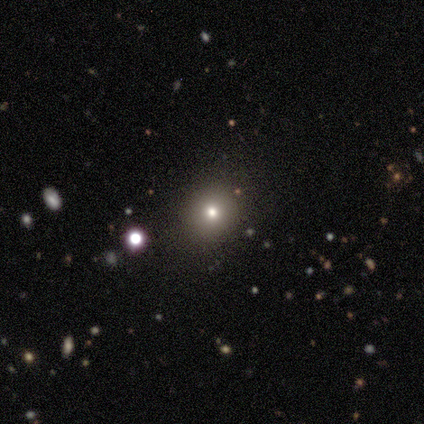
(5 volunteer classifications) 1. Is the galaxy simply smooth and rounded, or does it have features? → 60% star or artifact, 40% smooth, 0% featured or disk.